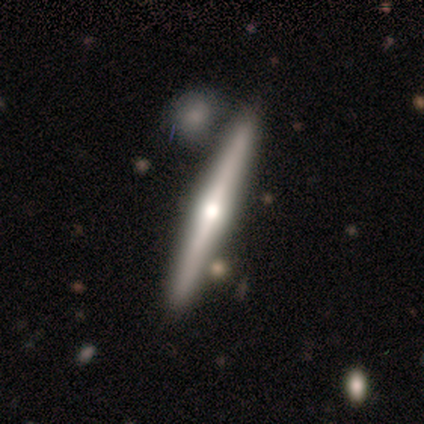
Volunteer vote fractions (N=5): This appears to be a featured or disk galaxy (80%) viewed edge-on (100%) with a rounded central bulge (75%). Merging: none (60%).